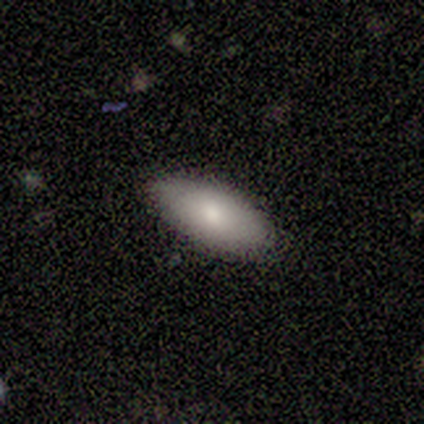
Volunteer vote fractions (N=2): A smooth galaxy with no disk features (100%) that is in between round and cigar-shaped (100%).

Vote fractions:
- Smooth or featured? smooth: 100% / featured or disk: 0% / star or artifact: 0%
- How rounded? in between: 100% / round: 0% / cigar-shaped: 0%
- Merging? none: 100% / minor disturbance: 0% / major disturbance: 0% / merger: 0%